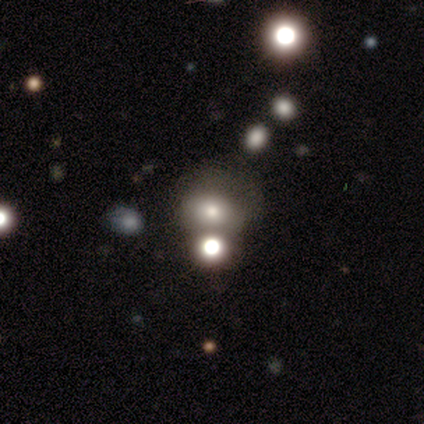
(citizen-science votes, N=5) This is clearly a smooth galaxy (80%). How rounded: possibly round (50%). Merging: marginally none (40%).